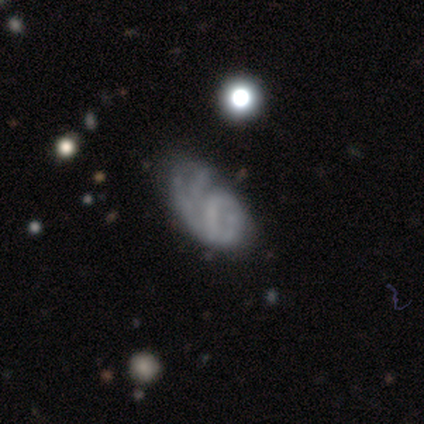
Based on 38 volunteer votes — featured or disk 55%, smooth 32%, star or artifact 13%. Down the decision tree: edge-on disk — no (95%); bar — no (65%); spiral arms — yes (55%); spiral arm count — 2 (36%); spiral winding — tight (36%, tied with loose); bulge size — none (85%); merging — none (36%, tied with major disturbance).